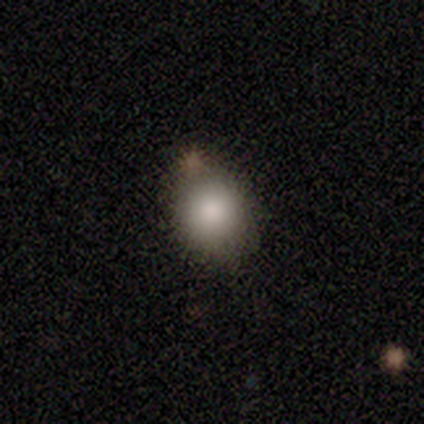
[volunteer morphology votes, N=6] Smooth or featured?
  - smooth: 100% *
  - featured or disk: 0%
  - star or artifact: 0%
How rounded?
  - round: 67% *
  - in between: 33%
  - cigar-shaped: 0%
Merging?
  - none: 83% *
  - major disturbance: 17%
  - minor disturbance: 0%
  - merger: 0%